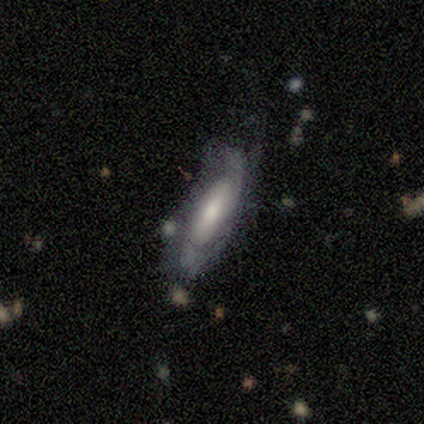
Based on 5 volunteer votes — Smooth or featured?
  - featured or disk: 80% *
  - smooth: 20%
  - star or artifact: 0%
Edge-on disk?
  - no: 100% *
  - yes: 0%
Bar?
  - no: 50% *
  - strong: 25%
  - weak: 25%
Spiral arms?
  - yes: 100% *
  - no: 0%
Spiral winding?
  - tight: 50% *
  - medium: 25%
  - loose: 25%
Spiral arm count?
  - 2: 50% * (tied)
  - can't tell: 50% * (tied)
  - 1: 0%
  - 3: 0%
  - 4: 0%
  - more than 4: 0%
Bulge size?
  - moderate: 75% *
  - large: 25%
  - dominant: 0%
  - small: 0%
  - none: 0%
Merging?
  - none: 100% *
  - minor disturbance: 0%
  - major disturbance: 0%
  - merger: 0%